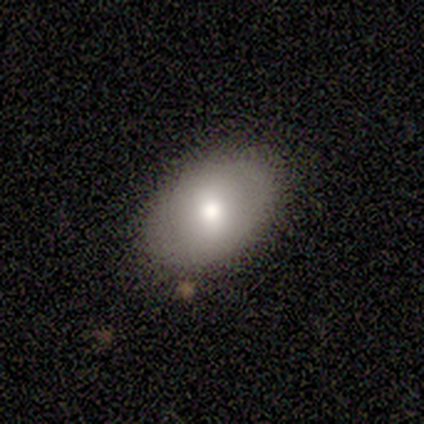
Volunteers were most divided on "smooth or featured": smooth: 60%, featured or disk: 40%, star or artifact: 0%. More confident: merging — none (100%); how rounded — in between (67%).